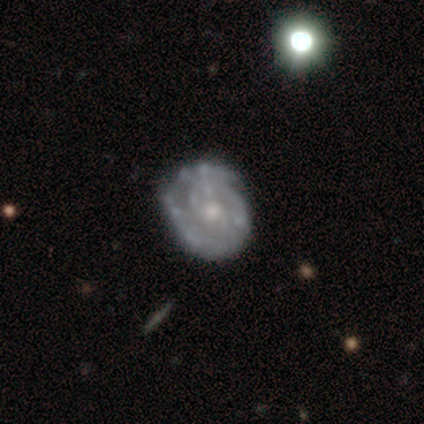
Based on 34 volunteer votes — smooth-or-featured: featured or disk: 88% | star or artifact: 9% | smooth: 3%
  disk-edge-on: no: 100% | yes: 0%
    bar: no: 80% | weak: 17% | strong: 3%
    has-spiral-arms: yes: 77% | no: 23%
      spiral-winding: tight: 78% | medium: 22% | loose: 0%
      spiral-arm-count: can't tell: 39% | 3: 26% | 2: 17% | 1: 13% | more than 4: 4% | 4: 0%
    bulge-size: moderate: 47% | small: 40% | large: 7% | none: 7% | dominant: 0%
  merging: none: 71% | minor disturbance: 23% | merger: 6% | major disturbance: 0%